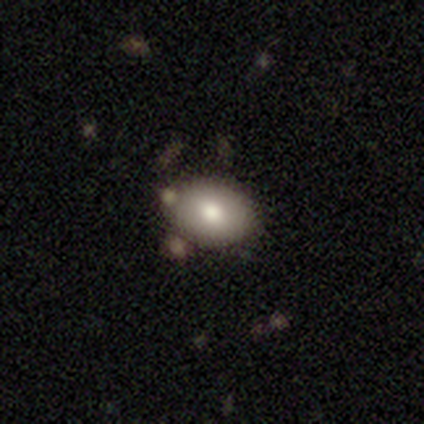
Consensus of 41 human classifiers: Smooth or featured?
  - smooth: 85% *
  - featured or disk: 7%
  - star or artifact: 7%
How rounded?
  - in between: 69% *
  - round: 31%
  - cigar-shaped: 0%
Merging?
  - none: 74% *
  - minor disturbance: 13%
  - major disturbance: 8%
  - merger: 5%